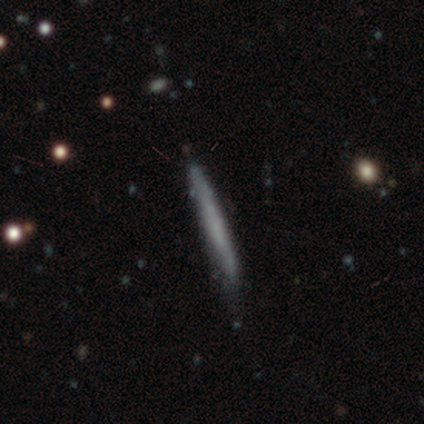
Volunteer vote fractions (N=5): Smooth or featured: smooth — 60% (featured or disk — 40%)
How rounded: cigar-shaped — 100%
Merging: minor disturbance — 80% (none — 20%)